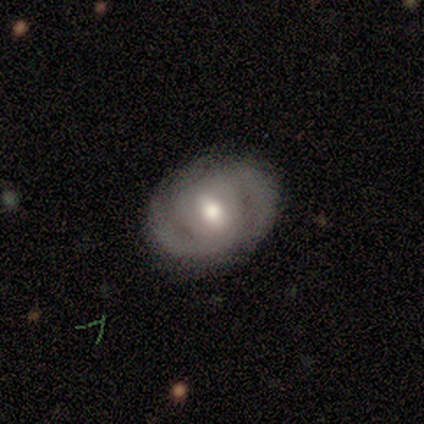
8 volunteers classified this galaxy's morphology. smooth_or_featured: featured or disk (p=0.75) [alt: smooth p=0.25]
disk_edge_on: no (p=1.00)
bar: weak (p=0.67) [alt: strong p=0.17]
has_spiral_arms: yes (p=0.67) [alt: no p=0.33]
spiral_winding: tight (p=0.75) [alt: medium p=0.25]
spiral_arm_count: 2 (p=0.75) [alt: 3 p=0.25]
bulge_size: moderate (p=1.00)
merging: none (p=0.75) [alt: minor disturbance p=0.12]